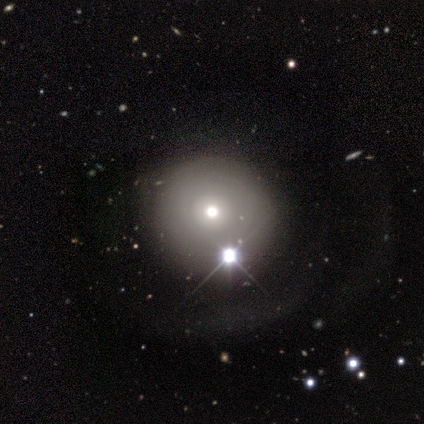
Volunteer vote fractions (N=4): smooth-or-featured: smooth: 50% | featured or disk: 25% | star or artifact: 25%
  how-rounded: round: 100% | in between: 0% | cigar-shaped: 0%
  merging: minor disturbance: 67% | major disturbance: 33% | none: 0% | merger: 0%